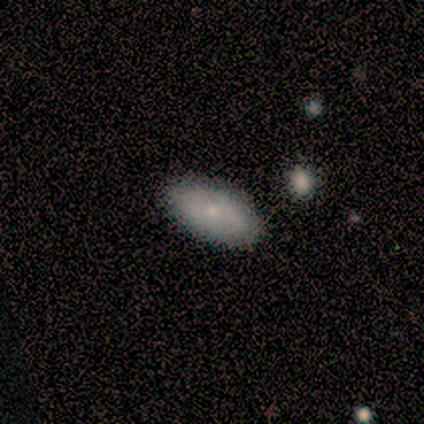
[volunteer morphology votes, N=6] Smooth or featured? smooth (67%)
How rounded? in between (100%)
Merging? none (100%)